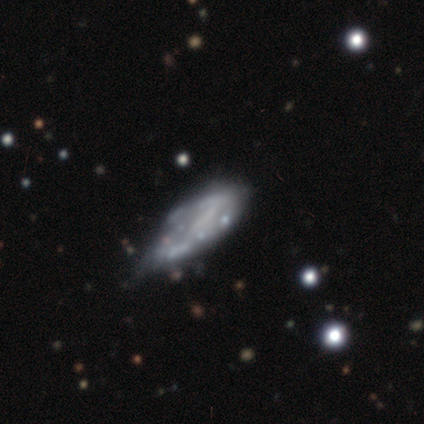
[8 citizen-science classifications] Q: Smooth or featured?
A: smooth (62%); runner-up: featured or disk (38%)
Q: How rounded?
A: in between (100%)
Q: Merging?
A: minor disturbance (50%); runner-up: major disturbance (25%)